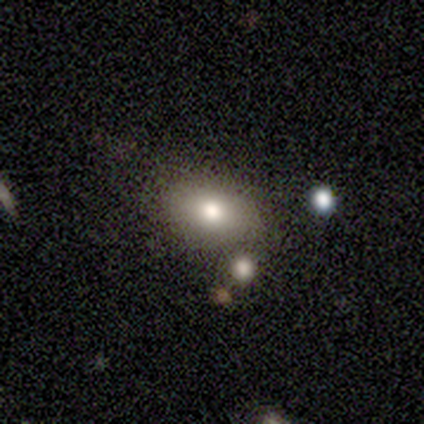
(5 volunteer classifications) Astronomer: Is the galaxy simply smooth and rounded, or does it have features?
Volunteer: smooth — 80%.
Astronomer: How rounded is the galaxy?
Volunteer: in between — 75%.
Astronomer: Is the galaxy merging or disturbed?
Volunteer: none — 50%.